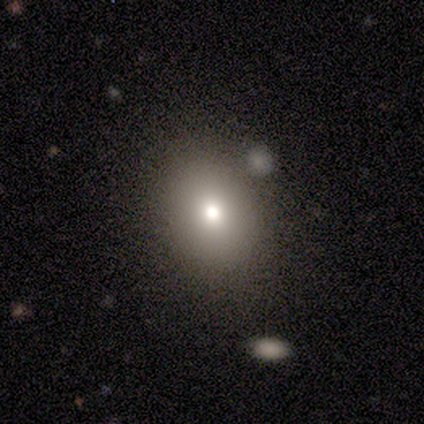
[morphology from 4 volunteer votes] Smooth or featured? featured or disk (50%)
Edge-on disk? no (100%)
Bar? no (100%)
Spiral arms? no (100%)
Bulge size? moderate (50%, tied with small)
Merging? none (100%)